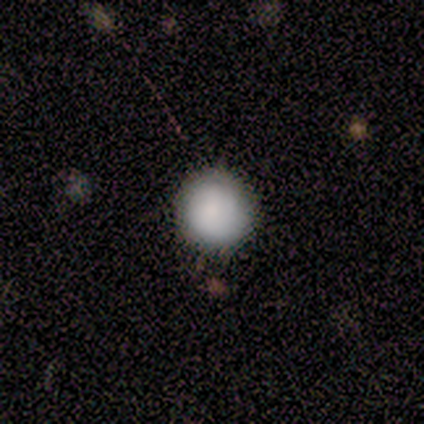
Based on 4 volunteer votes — Morphology: type=smooth (100%); roundness=round (100%); merging=none (75%).